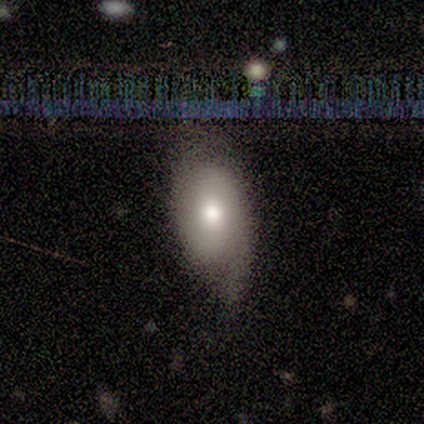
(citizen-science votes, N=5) Q: Smooth or featured?
A: smooth (60%); runner-up: featured or disk (40%)
Q: How rounded?
A: in between (100%)
Q: Merging?
A: none (40%); tied with: major disturbance (40%)